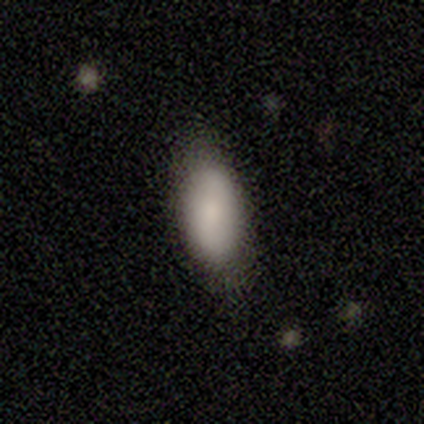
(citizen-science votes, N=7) smooth_or_featured: smooth (p=0.86) [alt: featured or disk p=0.14]
how_rounded: in between (p=0.83) [alt: cigar-shaped p=0.17]
merging: none (p=0.71) [alt: minor disturbance p=0.29]